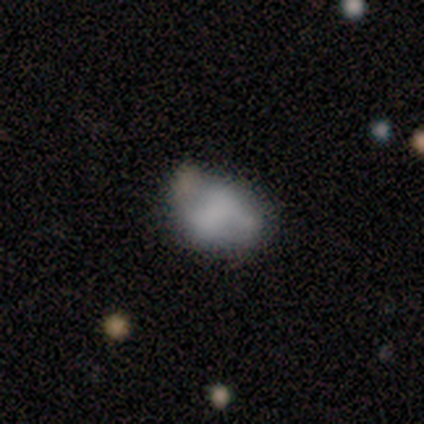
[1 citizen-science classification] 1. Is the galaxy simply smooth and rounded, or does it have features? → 100% featured or disk, 0% smooth, 0% star or artifact.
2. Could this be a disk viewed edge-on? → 100% no, 0% yes.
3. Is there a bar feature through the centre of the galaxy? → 100% no, 0% strong, 0% weak.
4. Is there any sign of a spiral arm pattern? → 100% no, 0% yes.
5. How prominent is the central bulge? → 100% none, 0% dominant, 0% large, 0% moderate, 0% small.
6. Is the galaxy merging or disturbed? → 100% major disturbance, 0% none, 0% minor disturbance, 0% merger.